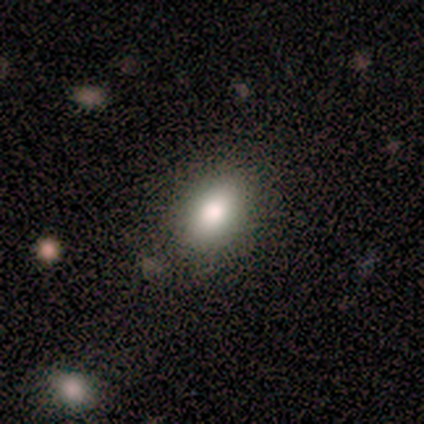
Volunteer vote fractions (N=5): A smooth galaxy with no disk features (100%) that is in between round and cigar-shaped (100%).

Vote fractions:
- Smooth or featured? smooth: 100% / featured or disk: 0% / star or artifact: 0%
- How rounded? in between: 100% / round: 0% / cigar-shaped: 0%
- Merging? none: 60% / minor disturbance: 40% / major disturbance: 0% / merger: 0%